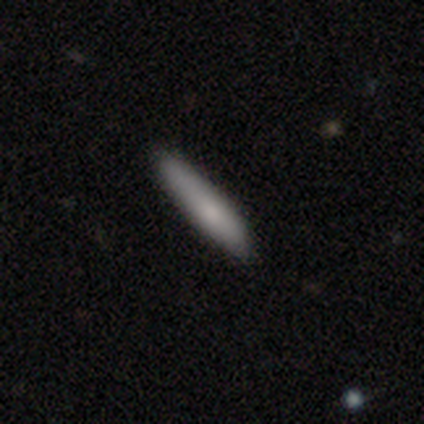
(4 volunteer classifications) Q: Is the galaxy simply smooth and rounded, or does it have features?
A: smooth — 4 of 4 (100%).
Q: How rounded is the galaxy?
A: cigar-shaped — 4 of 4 (100%).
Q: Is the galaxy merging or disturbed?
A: none — 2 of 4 (50%, tied with minor disturbance).